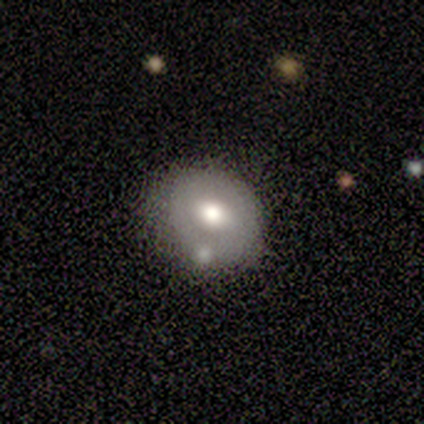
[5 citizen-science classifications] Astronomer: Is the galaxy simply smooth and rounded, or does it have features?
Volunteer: featured or disk — 60% (runner-up: smooth, 40%).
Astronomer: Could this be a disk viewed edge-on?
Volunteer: no — 100%.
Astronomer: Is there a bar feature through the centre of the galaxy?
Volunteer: no — 67%.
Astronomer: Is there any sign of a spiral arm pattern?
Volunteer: no — 67%.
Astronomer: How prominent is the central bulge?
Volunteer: moderate — 100%.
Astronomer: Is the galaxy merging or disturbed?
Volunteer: none — 100%.